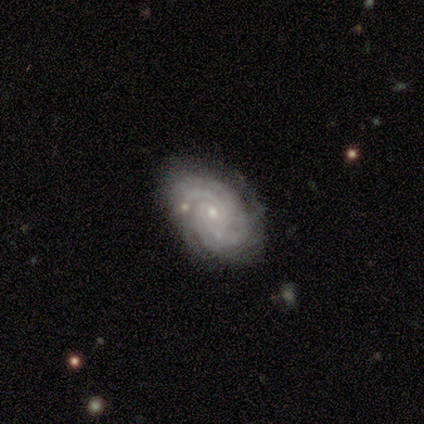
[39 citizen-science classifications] Smooth or featured?
  - featured or disk: 90% *
  - smooth: 5%
  - star or artifact: 5%
Edge-on disk?
  - no: 97% *
  - yes: 3%
Bar?
  - no: 76% *
  - weak: 24%
  - strong: 0%
Spiral arms?
  - yes: 100% *
  - no: 0%
Spiral winding?
  - tight: 82% *
  - medium: 18%
  - loose: 0%
Spiral arm count?
  - can't tell: 32% *
  - 4: 29%
  - more than 4: 18%
  - 3: 12%
  - 2: 9%
  - 1: 0%
Bulge size?
  - small: 68% *
  - moderate: 24%
  - none: 9%
  - dominant: 0%
  - large: 0%
Merging?
  - none: 86% *
  - minor disturbance: 8%
  - major disturbance: 3%
  - merger: 3%